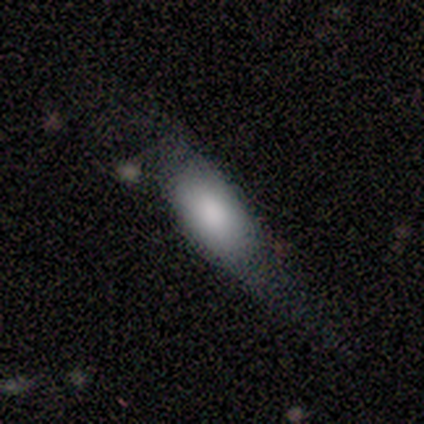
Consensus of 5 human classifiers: Smooth or featured: smooth — 60% (featured or disk — 20%)
How rounded: in between — 100%
Merging: major disturbance — 100%